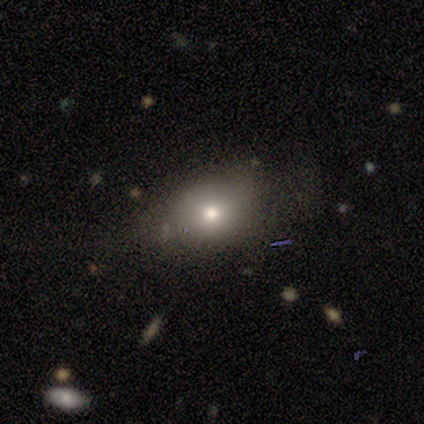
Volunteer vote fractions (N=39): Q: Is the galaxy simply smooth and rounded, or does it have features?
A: smooth — 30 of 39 (77%).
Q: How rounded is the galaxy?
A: in between — 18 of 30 (60%).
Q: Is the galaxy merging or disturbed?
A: none — 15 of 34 (44%).